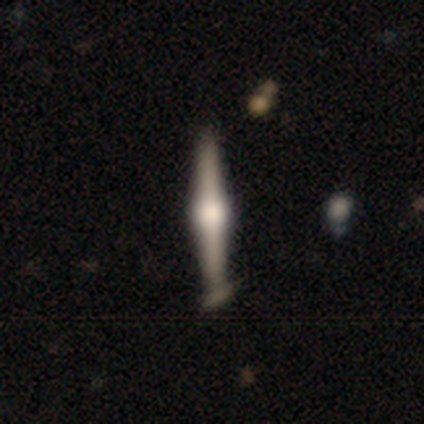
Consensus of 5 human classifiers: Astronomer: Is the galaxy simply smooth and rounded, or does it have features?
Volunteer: featured or disk — 80%.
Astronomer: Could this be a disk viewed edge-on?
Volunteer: yes — 100%.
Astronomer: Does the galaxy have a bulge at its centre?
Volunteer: rounded — 100%.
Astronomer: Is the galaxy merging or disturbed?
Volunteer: minor disturbance — 60% (runner-up: none, 40%).